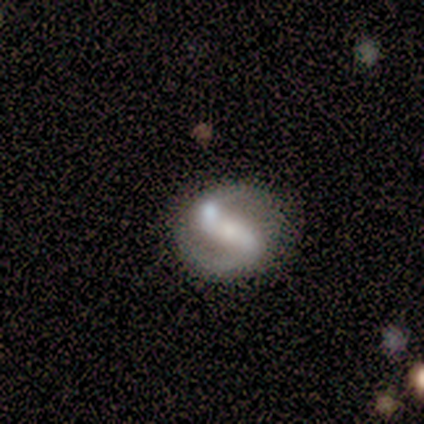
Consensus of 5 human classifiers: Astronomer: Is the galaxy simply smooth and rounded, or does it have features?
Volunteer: featured or disk — 80%.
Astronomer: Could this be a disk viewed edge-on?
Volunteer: no — 100%.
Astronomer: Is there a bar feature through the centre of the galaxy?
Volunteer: weak — 75%.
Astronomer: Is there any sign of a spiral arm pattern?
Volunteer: yes — 100%.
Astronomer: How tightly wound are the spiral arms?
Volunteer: medium — 75%.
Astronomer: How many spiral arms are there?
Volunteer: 2 — 75%.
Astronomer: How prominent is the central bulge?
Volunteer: none — 75%.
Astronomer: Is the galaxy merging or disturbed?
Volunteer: none — 80%.